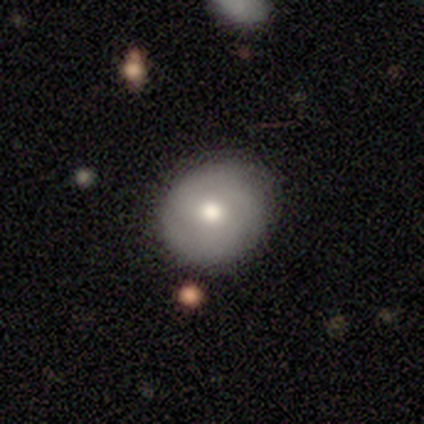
Smooth or featured? 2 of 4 (50%) said smooth. How rounded? 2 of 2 (100%) said round. Merging? 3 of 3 (100%) said none.